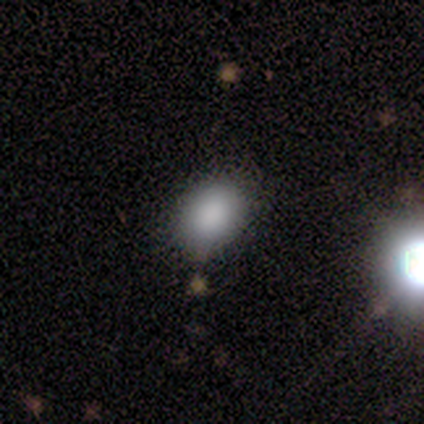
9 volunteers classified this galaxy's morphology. Q: Smooth or featured?
A: smooth (89%); runner-up: featured or disk (11%)
Q: How rounded?
A: in between (100%)
Q: Merging?
A: none (89%); runner-up: minor disturbance (11%)